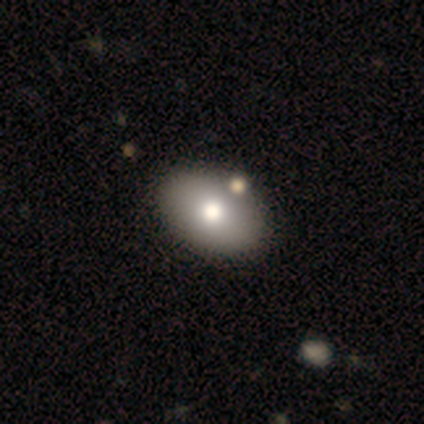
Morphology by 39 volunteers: This is likely a smooth galaxy (69%). How rounded: clearly in between (89%). Merging: likely none (68%).